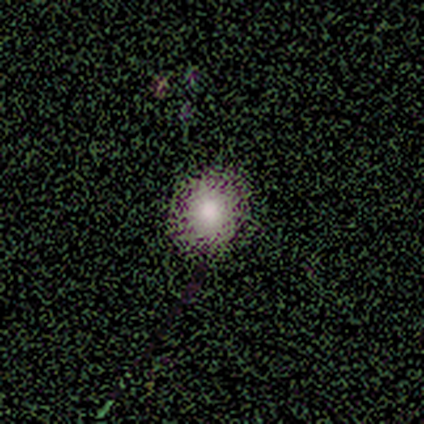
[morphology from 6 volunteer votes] Smooth or featured? 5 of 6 (83%) said smooth. How rounded? 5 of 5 (100%) said round. Merging? 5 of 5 (100%) said none.